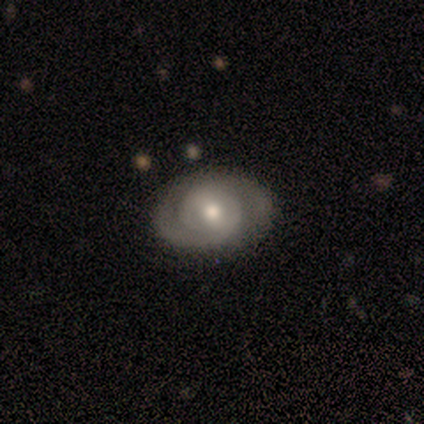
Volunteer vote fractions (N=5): A featured or disk galaxy (100%) with no bar (60%), 2 (80%) tight (80%) spiral arms (100%) and a moderate central bulge (100%).

Vote fractions:
- Smooth or featured? featured or disk: 100% / smooth: 0% / star or artifact: 0%
- Edge-on disk? no: 100% / yes: 0%
- Bar? no: 60% / strong: 20% / weak: 20%
- Spiral arms? yes: 100% / no: 0%
- Spiral winding? tight: 80% / medium: 20% / loose: 0%
- Spiral arm count? 2: 80% / can't tell: 20% / 1: 0% / 3: 0% / 4: 0% / more than 4: 0%
- Bulge size? moderate: 100% / dominant: 0% / large: 0% / small: 0% / none: 0%
- Merging? none: 100% / minor disturbance: 0% / major disturbance: 0% / merger: 0%